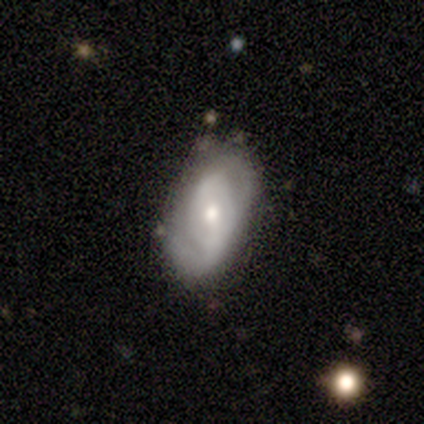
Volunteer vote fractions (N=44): Smooth or featured: featured or disk — 73% (smooth — 20%)
Edge-on disk: no — 94% (yes — 6%)
Bar: weak — 60% (strong — 23%)
Spiral arms: yes — 83% (no — 17%)
Spiral winding: medium — 40% (loose — 32%)
Spiral arm count: 2 — 64% (1 — 28%)
Bulge size: moderate — 50% (small — 40%)
Merging: none — 59% (minor disturbance — 29%)